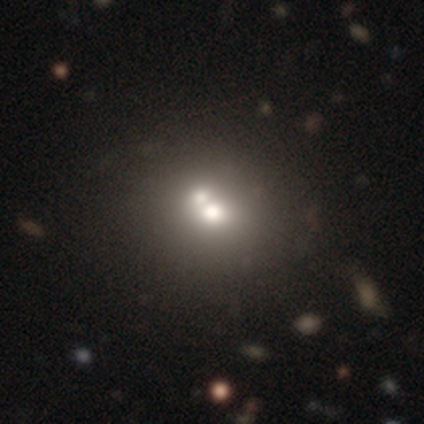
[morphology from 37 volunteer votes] This is possibly a smooth galaxy (51%). How rounded: likely round (79%). Merging: possibly merger (55%).